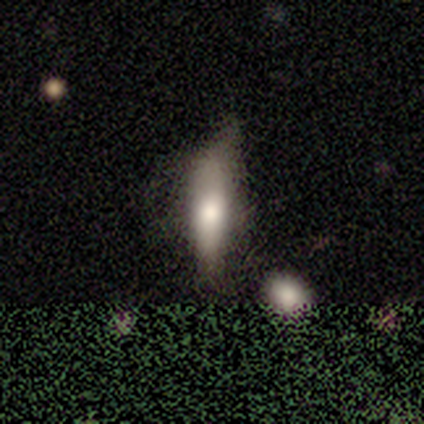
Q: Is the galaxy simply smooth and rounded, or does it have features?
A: smooth — 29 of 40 (72%).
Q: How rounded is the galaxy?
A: in between — 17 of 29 (59%).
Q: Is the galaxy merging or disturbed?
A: none — 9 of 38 (24%, tied with minor disturbance).